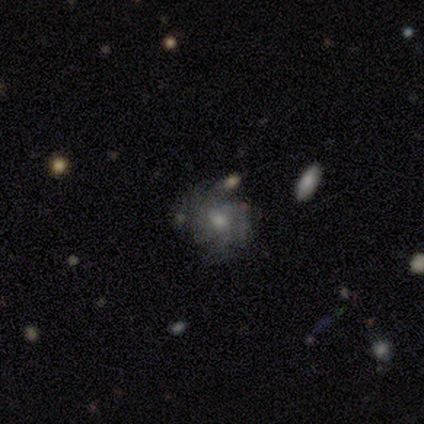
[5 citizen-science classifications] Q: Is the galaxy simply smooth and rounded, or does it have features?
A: featured or disk — 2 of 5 (40%, tied with star or artifact).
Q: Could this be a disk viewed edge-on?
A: no — 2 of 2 (100%).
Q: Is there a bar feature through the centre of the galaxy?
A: weak — 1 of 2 (50%, tied with no).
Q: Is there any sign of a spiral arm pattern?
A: yes — 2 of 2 (100%).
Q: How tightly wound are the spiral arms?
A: tight — 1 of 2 (50%, tied with loose).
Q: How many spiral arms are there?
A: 2 — 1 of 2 (50%, tied with 4).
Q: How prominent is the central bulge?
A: moderate — 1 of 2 (50%, tied with small).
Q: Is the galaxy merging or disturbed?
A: none — 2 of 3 (67%).